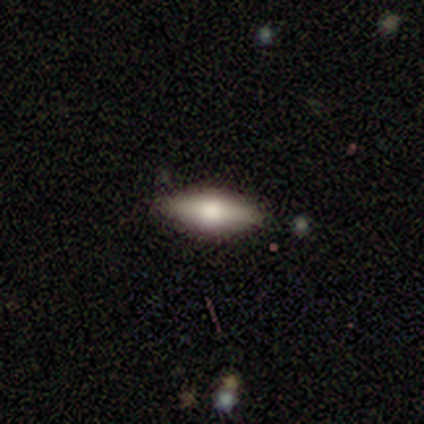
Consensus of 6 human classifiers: Morphology: type=smooth (83%); roundness=in between (60%); merging=none (83%).